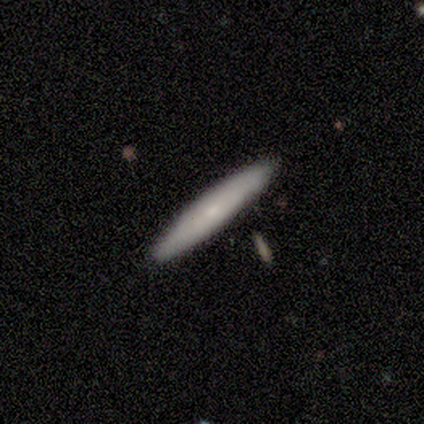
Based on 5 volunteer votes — smooth_or_featured: smooth (p=0.80) [alt: featured or disk p=0.20]
how_rounded: cigar-shaped (p=1.00)
merging: none (p=1.00)